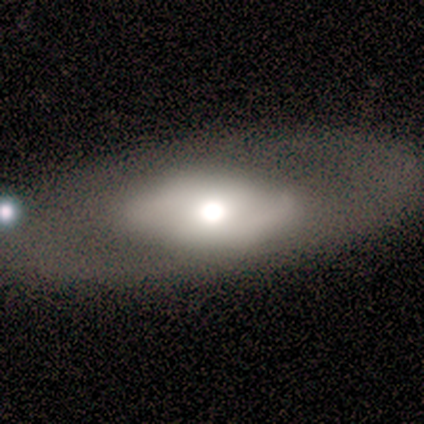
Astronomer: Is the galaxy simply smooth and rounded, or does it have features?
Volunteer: smooth — 60%.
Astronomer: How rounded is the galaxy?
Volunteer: in between — 100%.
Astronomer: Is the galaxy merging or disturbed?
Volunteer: none — 75%.